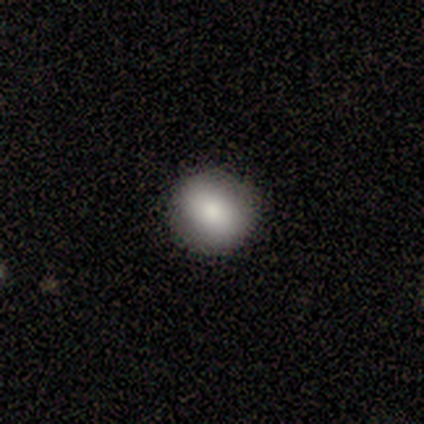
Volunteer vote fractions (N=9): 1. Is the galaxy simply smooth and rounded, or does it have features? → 44% smooth, 33% featured or disk, 22% star or artifact.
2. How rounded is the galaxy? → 75% round, 25% in between, 0% cigar-shaped.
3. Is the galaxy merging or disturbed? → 86% none, 14% minor disturbance, 0% major disturbance, 0% merger.